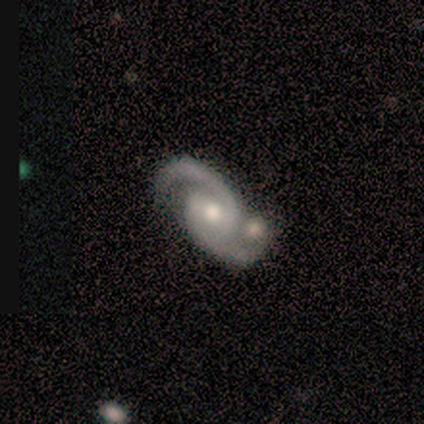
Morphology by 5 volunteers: A featured or disk galaxy (100%) with no bar (80%), 2 (100%) medium (60%) spiral arms (100%) and a moderate central bulge (100%).

Vote fractions:
- Smooth or featured? featured or disk: 100% / smooth: 0% / star or artifact: 0%
- Edge-on disk? no: 100% / yes: 0%
- Bar? no: 80% / weak: 20% / strong: 0%
- Spiral arms? yes: 100% / no: 0%
- Spiral winding? medium: 60% / tight: 20% / loose: 20%
- Spiral arm count? 2: 100% / 1: 0% / 3: 0% / 4: 0% / more than 4: 0% / can't tell: 0%
- Bulge size? moderate: 100% / dominant: 0% / large: 0% / small: 0% / none: 0%
- Merging? none: 40% (tied) / merger: 40% (tied) / minor disturbance: 20% / major disturbance: 0%